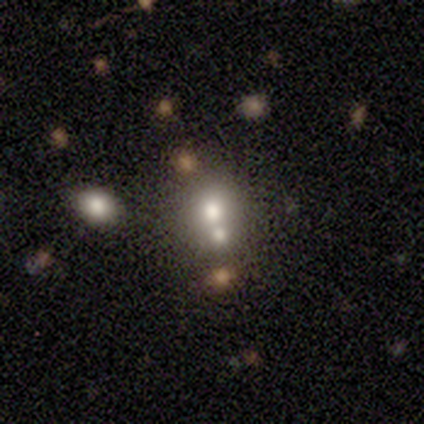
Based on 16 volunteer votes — This appears to be a smooth galaxy with no disk features (56%) that is round (67%). Merging: none (54%).